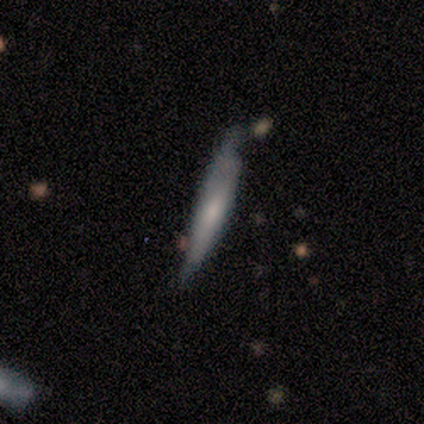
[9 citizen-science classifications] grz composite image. It shows a smooth galaxy with no disk features (67%) that is cigar-shaped (83%). Merging: none (56%).